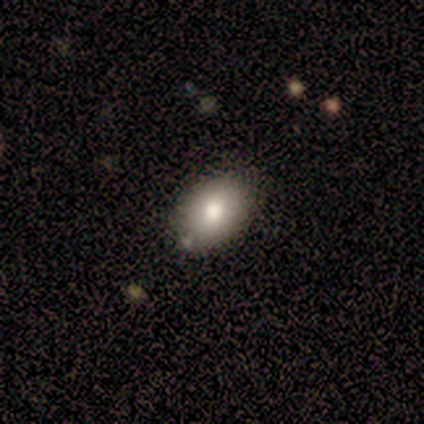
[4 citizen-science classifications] A smooth galaxy with no disk features (75%) that is round (67%).

Vote fractions:
- Smooth or featured? smooth: 75% / star or artifact: 25% / featured or disk: 0%
- How rounded? round: 67% / in between: 33% / cigar-shaped: 0%
- Merging? none: 100% / minor disturbance: 0% / major disturbance: 0% / merger: 0%